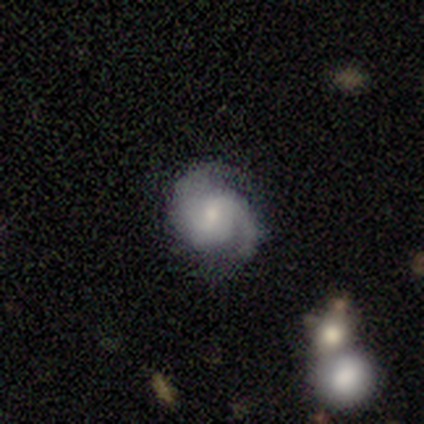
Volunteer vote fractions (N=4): Smooth or featured? 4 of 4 (100%) said featured or disk. Edge-on disk? 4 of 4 (100%) said no. Bar? 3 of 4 (75%) said no. Spiral arms? 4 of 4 (100%) said yes. Spiral winding? 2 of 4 (50%, tied with medium) said tight. Spiral arm count? 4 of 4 (100%) said 2. Bulge size? 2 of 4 (50%, tied with small) said moderate. Merging? 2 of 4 (50%) said none.